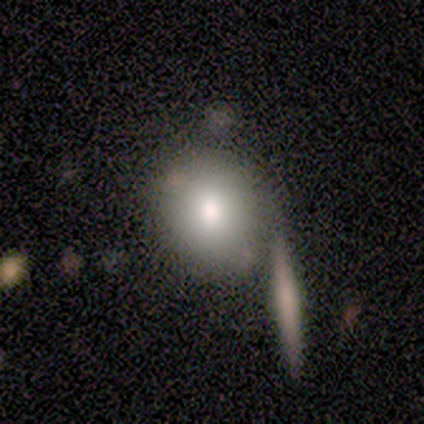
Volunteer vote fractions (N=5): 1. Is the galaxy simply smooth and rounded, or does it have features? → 100% smooth, 0% featured or disk, 0% star or artifact.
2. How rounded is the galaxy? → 60% round, 40% in between, 0% cigar-shaped.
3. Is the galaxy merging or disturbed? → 60% none, 40% merger, 0% minor disturbance, 0% major disturbance.